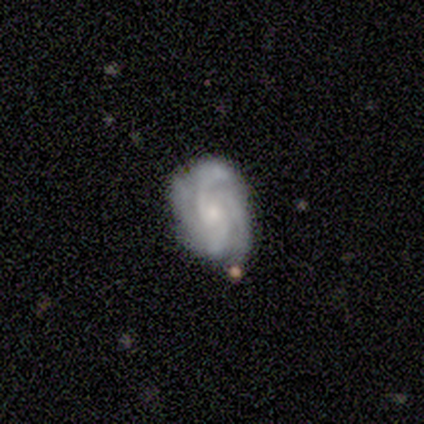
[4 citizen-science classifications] featured or disk 75%, smooth 25%, star or artifact 0%. Down the decision tree: edge-on disk — no (100%); bar — no (67%); spiral arms — yes (100%); spiral arm count — 4 (67%); spiral winding — tight (67%); bulge size — small (100%); merging — none (100%).